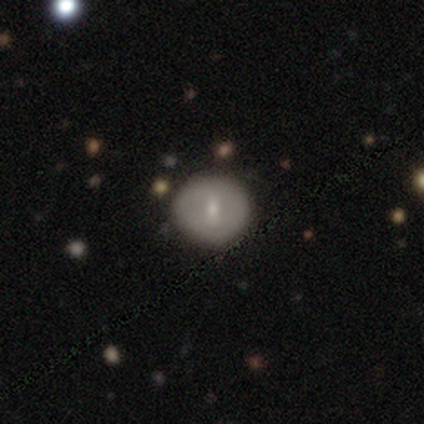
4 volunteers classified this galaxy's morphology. Smooth or featured: smooth — 50% (featured or disk — 25%)
How rounded: round — 50% (tied with in between — 50%)
Merging: none — 100%